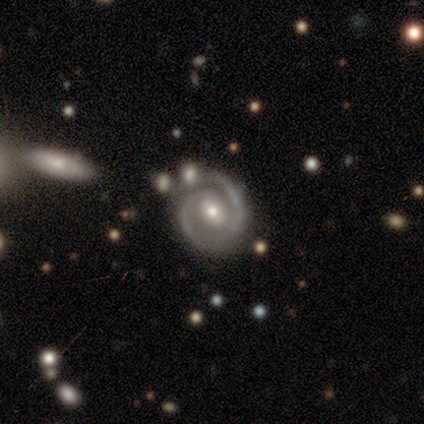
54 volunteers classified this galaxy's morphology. This is clearly a featured or disk galaxy (91%). It is clearly not viewed edge-on (98%). Bar: possibly weak (50%). Spiral arm pattern: clearly yes (94%). Spiral arm count: likely 2 (69%). Spiral winding: possibly tight (58%). Central bulge: likely moderate (67%). Merging: possibly none (59%).